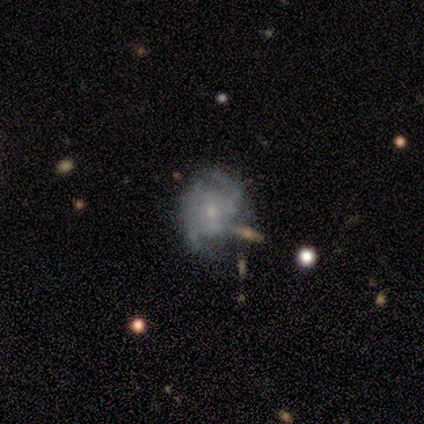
A featured or disk galaxy (80%) with no bar (83%), 2 (58%) medium (65%) spiral arms (72%) and a small central bulge (67%). Merging: none (31%, tied with major disturbance).